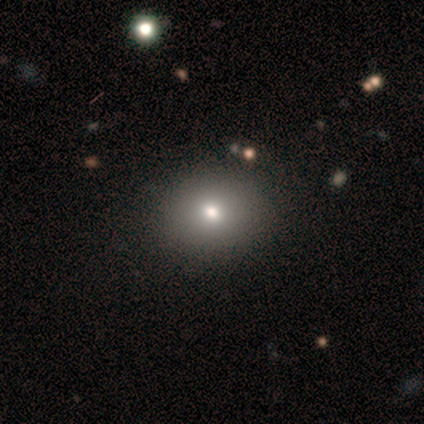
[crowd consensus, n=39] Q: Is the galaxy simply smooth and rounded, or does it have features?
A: smooth — 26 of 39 (67%).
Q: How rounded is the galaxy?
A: round — 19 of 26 (73%).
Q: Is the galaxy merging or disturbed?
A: none — 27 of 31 (87%).